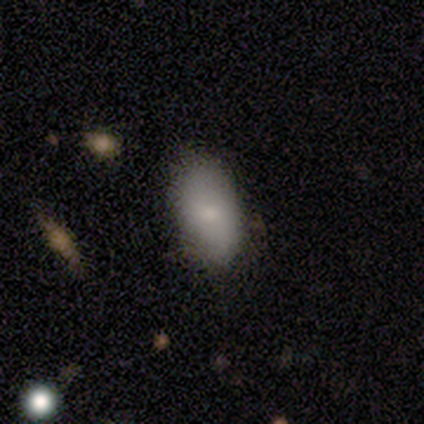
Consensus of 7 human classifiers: A smooth galaxy with no disk features (71%) that is in between round and cigar-shaped (100%).

Vote fractions:
- Smooth or featured? smooth: 71% / star or artifact: 29% / featured or disk: 0%
- How rounded? in between: 100% / round: 0% / cigar-shaped: 0%
- Merging? none: 100% / minor disturbance: 0% / major disturbance: 0% / merger: 0%